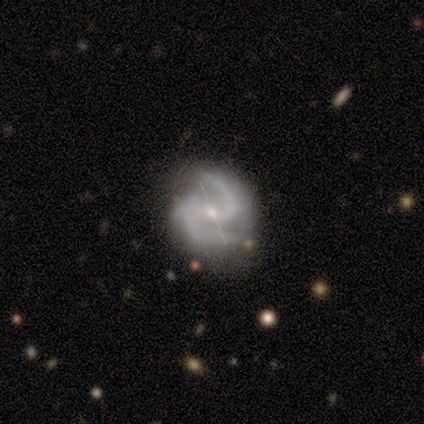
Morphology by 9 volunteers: Q: Smooth or featured?
A: featured or disk (100%)
Q: Edge-on disk?
A: no (100%)
Q: Bar?
A: no (44%); runner-up: strong (33%)
Q: Spiral arms?
A: yes (100%)
Q: Spiral winding?
A: medium (89%); runner-up: tight (11%)
Q: Spiral arm count?
A: 2 (78%); runner-up: 3 (22%)
Q: Bulge size?
A: small (89%); runner-up: moderate (11%)
Q: Merging?
A: none (67%); runner-up: minor disturbance (33%)